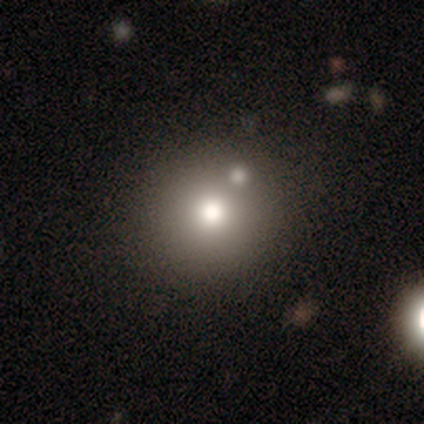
Q: Smooth or featured?
A: smooth (80%); runner-up: featured or disk (20%)
Q: How rounded?
A: round (100%)
Q: Merging?
A: none (60%); runner-up: minor disturbance (20%)